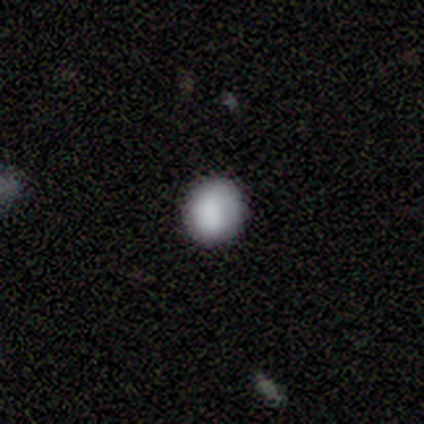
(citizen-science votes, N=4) Smooth or featured? smooth (100%)
How rounded? round (75%)
Merging? none (75%)